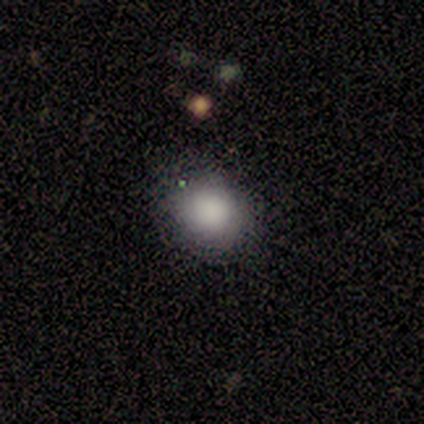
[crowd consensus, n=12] Q: Smooth or featured?
A: smooth (100%)
Q: How rounded?
A: round (67%); runner-up: in between (33%)
Q: Merging?
A: none (75%); runner-up: minor disturbance (25%)